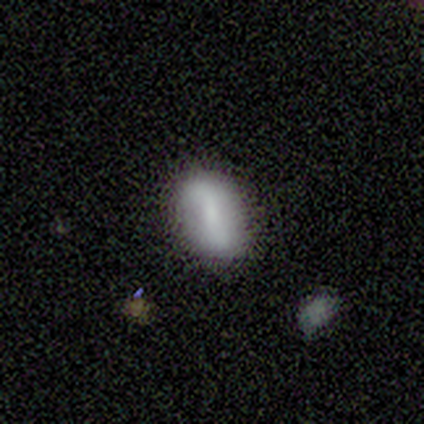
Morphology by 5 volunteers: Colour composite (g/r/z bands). It shows a smooth galaxy with no disk features (80%) that is in between round and cigar-shaped (100%). Merging: none (60%).